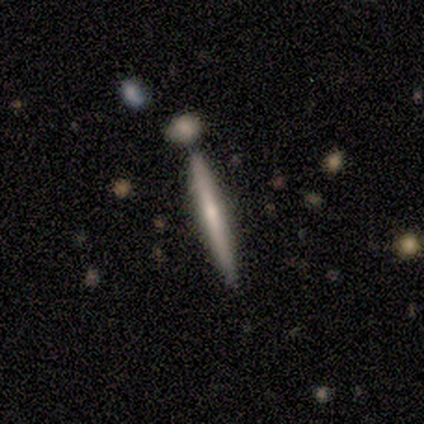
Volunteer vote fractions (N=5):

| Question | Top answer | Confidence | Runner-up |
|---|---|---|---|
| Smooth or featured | featured or disk | 60% | smooth (40%) |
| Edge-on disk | yes | 100% | — |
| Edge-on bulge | rounded | 67% | boxy (33%) |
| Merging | none | 100% | — |